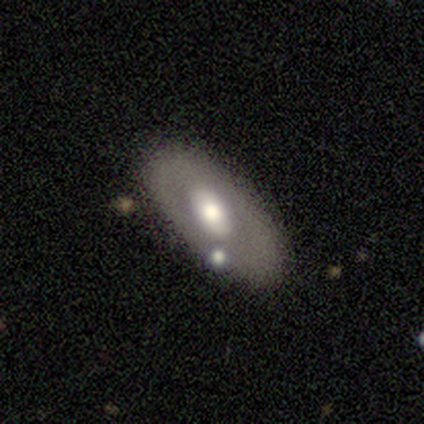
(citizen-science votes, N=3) A featured or disk galaxy (100%) viewed edge-on (67%) with a rounded central bulge (100%). Merging: none (33%, tied with major disturbance and merger).